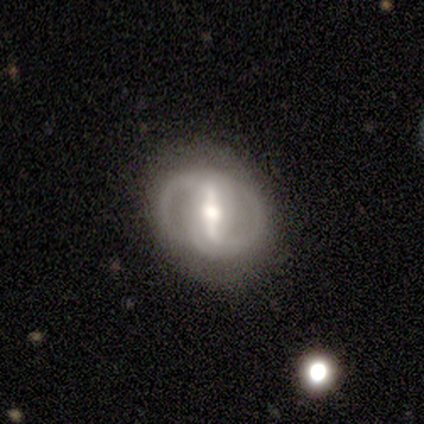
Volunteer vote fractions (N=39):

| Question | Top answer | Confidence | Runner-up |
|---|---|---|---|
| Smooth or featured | featured or disk | 92% | smooth (5%) |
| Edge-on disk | no | 94% | yes (6%) |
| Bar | strong | 79% | weak (15%) |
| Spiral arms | yes | 76% | no (24%) |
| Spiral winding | tight | 42% | medium (31%) |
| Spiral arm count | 2 | 88% | can't tell (8%) |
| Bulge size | moderate | 71% | small (15%) |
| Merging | none | 74% | minor disturbance (16%) |